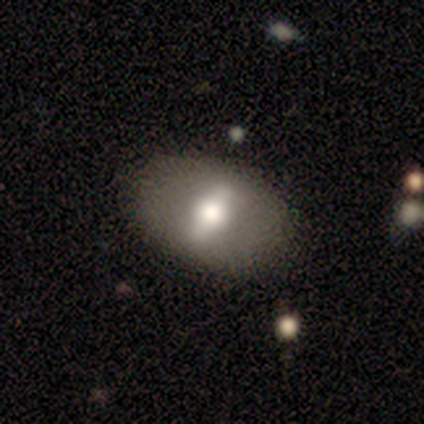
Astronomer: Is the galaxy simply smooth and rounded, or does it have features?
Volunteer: featured or disk — 80%.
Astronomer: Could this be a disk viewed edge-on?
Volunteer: no — 100%.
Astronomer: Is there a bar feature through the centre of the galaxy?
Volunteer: weak — 50%.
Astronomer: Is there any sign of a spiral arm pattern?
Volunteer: no — 100%.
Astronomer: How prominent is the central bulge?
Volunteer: large — 75%.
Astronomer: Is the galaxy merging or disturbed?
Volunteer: none — 80%.